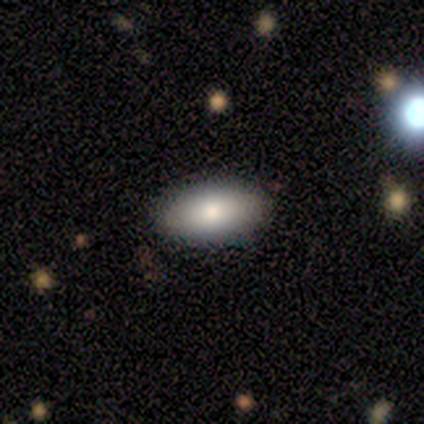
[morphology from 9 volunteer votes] smooth 100%, featured or disk 0%, star or artifact 0%. Down the decision tree: how rounded — in between (100%); merging — none (100%).